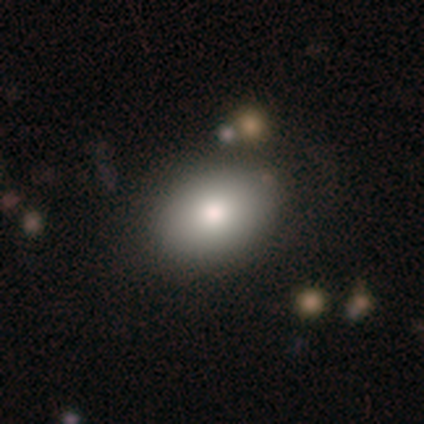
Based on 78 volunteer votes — A smooth galaxy with no disk features (79%) that is in between round and cigar-shaped (73%).

Vote fractions:
- Smooth or featured? smooth: 79% / star or artifact: 12% / featured or disk: 9%
- How rounded? in between: 73% / round: 26% / cigar-shaped: 2%
- Merging? none: 42% / minor disturbance: 10% / merger: 1% / major disturbance: 0%